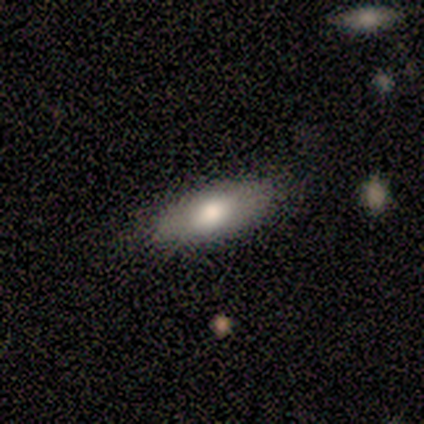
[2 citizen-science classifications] smooth-or-featured: smooth: 100% | featured or disk: 0% | star or artifact: 0%
  how-rounded: in between: 100% | round: 0% | cigar-shaped: 0%
  merging: none: 100% | minor disturbance: 0% | major disturbance: 0% | merger: 0%